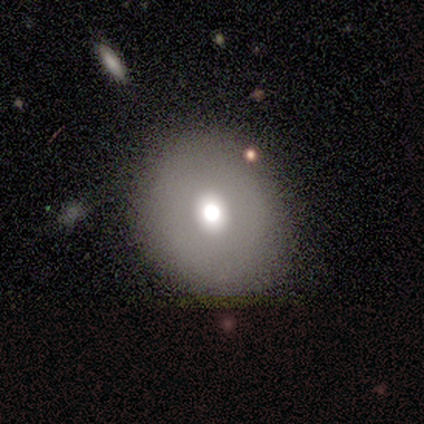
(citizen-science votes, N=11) A smooth galaxy with no disk features (64%) that is round (57%). Merging: none (100%).